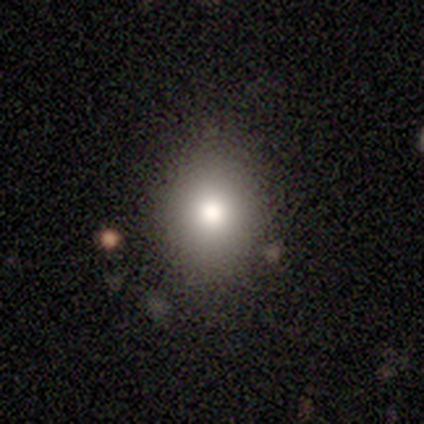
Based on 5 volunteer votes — Smooth or featured? 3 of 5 (60%) said smooth. How rounded? 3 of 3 (100%) said round. Merging? 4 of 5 (80%) said none.